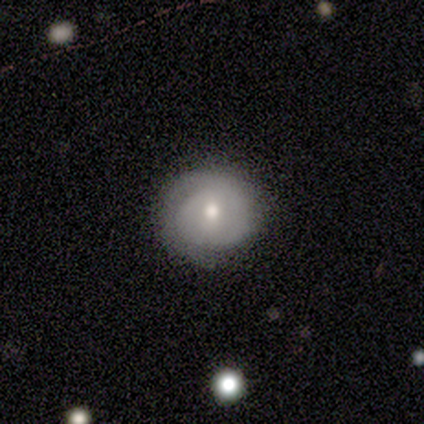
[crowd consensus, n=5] Smooth or featured?
  - smooth: 60% *
  - featured or disk: 40%
  - star or artifact: 0%
How rounded?
  - round: 100% *
  - in between: 0%
  - cigar-shaped: 0%
Merging?
  - none: 40% * (tied)
  - minor disturbance: 40% * (tied)
  - major disturbance: 20%
  - merger: 0%